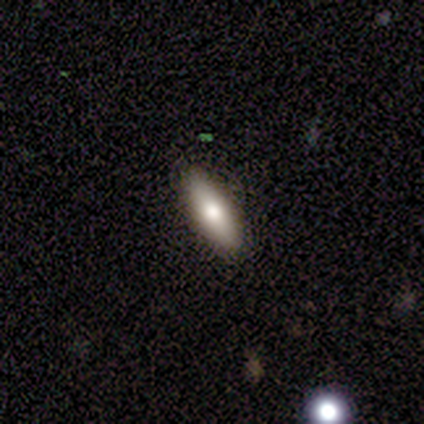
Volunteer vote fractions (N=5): Smooth or featured? 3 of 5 (60%) said smooth. How rounded? 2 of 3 (67%) said cigar-shaped. Merging? 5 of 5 (100%) said none.